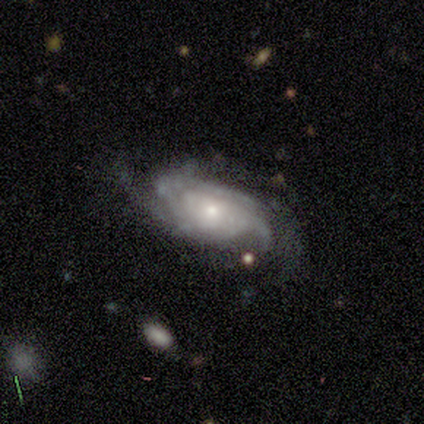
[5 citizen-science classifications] This appears to be a featured or disk galaxy (100%) with no bar (80%), 3 (40%, tied with can't tell) medium (80%) spiral arms (100%) and a small central bulge (60%). Merging: none (80%).